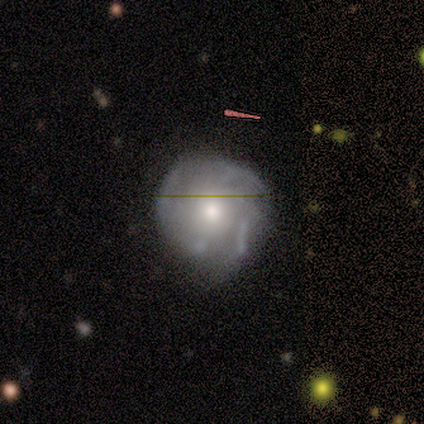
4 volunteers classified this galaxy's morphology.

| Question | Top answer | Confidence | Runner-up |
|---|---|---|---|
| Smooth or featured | featured or disk | 50% | smooth (25%) |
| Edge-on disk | no | 100% | — |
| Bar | weak | 50% | tied: no (50%) |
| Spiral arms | yes | 50% | tied: no (50%) |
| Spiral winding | tight | 100% | — |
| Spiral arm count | can't tell | 100% | — |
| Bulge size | large | 50% | tied: small (50%) |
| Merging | minor disturbance | 67% | none (33%) |